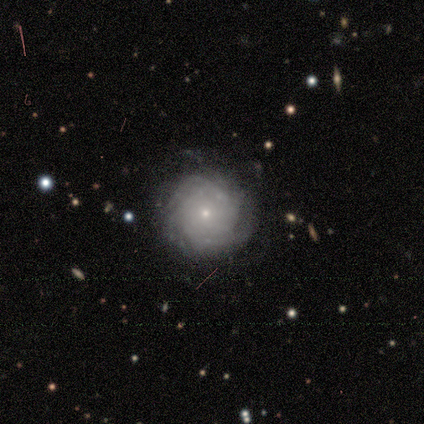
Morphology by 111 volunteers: smooth_or_featured: featured or disk (p=0.77) [alt: smooth p=0.20]
disk_edge_on: no (p=1.00)
bar: no (p=0.87) [alt: weak p=0.12]
has_spiral_arms: yes (p=0.89) [alt: no p=0.11]
spiral_winding: tight (p=0.83) [alt: loose p=0.09]
spiral_arm_count: can't tell (p=0.53) [alt: more than 4 p=0.18]
bulge_size: small (p=0.93) [alt: moderate p=0.06]
merging: none (p=0.72) [alt: minor disturbance p=0.18]